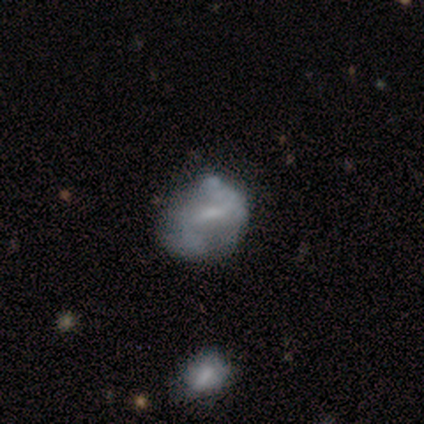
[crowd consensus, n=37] featured or disk 68%, smooth 19%, star or artifact 14%. Down the decision tree: edge-on disk — no (100%); bar — weak (48%); spiral arms — no (68%); bulge size — small (40%); merging — none (28%, tied with major disturbance).